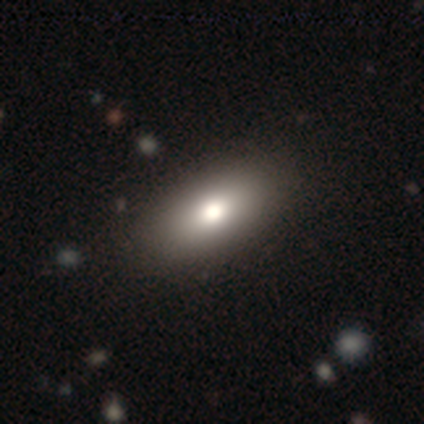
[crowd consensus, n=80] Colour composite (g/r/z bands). It shows a smooth galaxy with no disk features (84%) that is in between round and cigar-shaped (94%). Merging: none (43%).